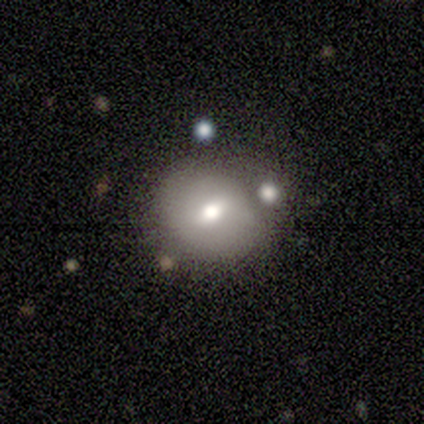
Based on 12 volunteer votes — smooth_or_featured: smooth (p=0.67) [alt: featured or disk p=0.25]
how_rounded: round (p=0.88) [alt: in between p=0.12]
merging: none (p=0.55) [alt: minor disturbance p=0.36]